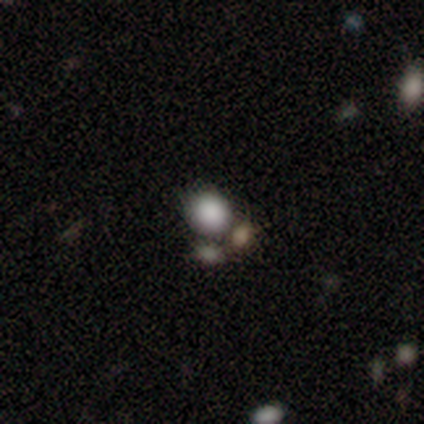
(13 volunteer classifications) smooth 62%, star or artifact 23%, featured or disk 15%. Down the decision tree: how rounded — round (62%); merging — none (60%).